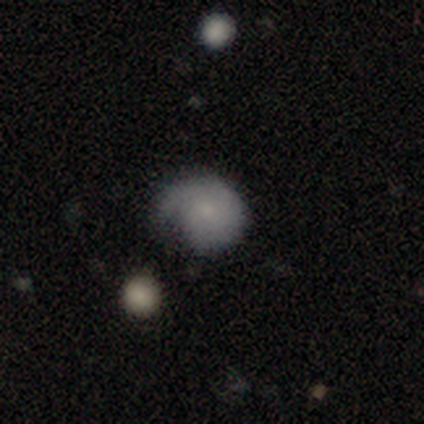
smooth-or-featured: smooth: 80% | star or artifact: 20% | featured or disk: 0%
  how-rounded: round: 75% | in between: 25% | cigar-shaped: 0%
  merging: minor disturbance: 50% (tied) | major disturbance: 50% (tied) | none: 0% | merger: 0%